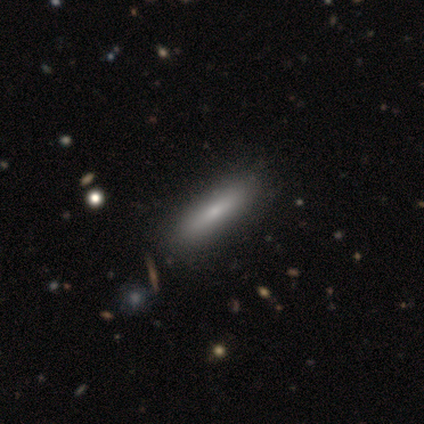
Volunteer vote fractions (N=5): Morphology: type=smooth (80%); roundness=cigar-shaped (75%); merging=none (80%).